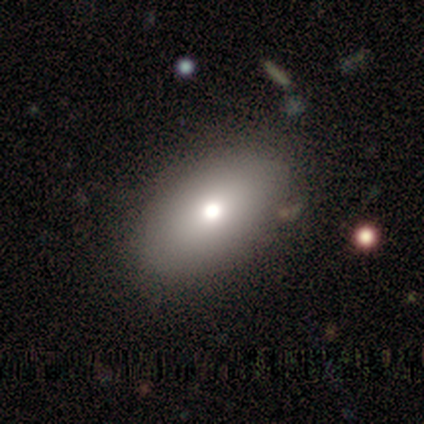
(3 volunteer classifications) smooth 67%, featured or disk 33%, star or artifact 0%. Down the decision tree: how rounded — in between (100%); merging — none (100%).